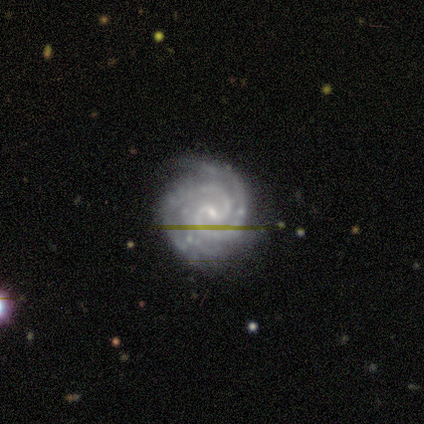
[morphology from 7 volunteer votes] smooth-or-featured: featured or disk: 100% | smooth: 0% | star or artifact: 0%
  disk-edge-on: no: 100% | yes: 0%
    bar: no: 57% | weak: 43% | strong: 0%
    has-spiral-arms: yes: 100% | no: 0%
      spiral-winding: tight: 86% | medium: 14% | loose: 0%
      spiral-arm-count: 2: 57% | 3: 29% | 4: 14% | 1: 0% | more than 4: 0% | can't tell: 0%
    bulge-size: small: 71% | moderate: 29% | dominant: 0% | large: 0% | none: 0%
  merging: none: 86% | merger: 14% | minor disturbance: 0% | major disturbance: 0%